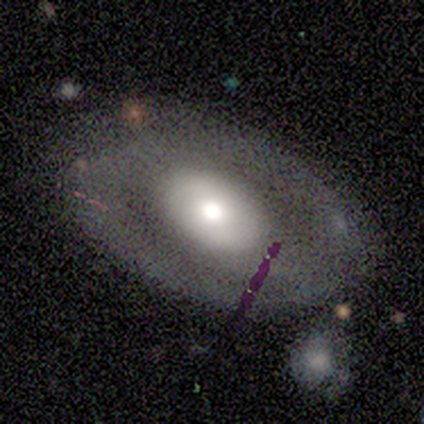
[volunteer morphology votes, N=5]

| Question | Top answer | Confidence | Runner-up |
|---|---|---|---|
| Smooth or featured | featured or disk | 80% | smooth (20%) |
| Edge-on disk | no | 100% | — |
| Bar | no | 75% | weak (25%) |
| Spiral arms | no | 75% | yes (25%) |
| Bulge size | small | 50% | large (25%) |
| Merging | none | 80% | major disturbance (20%) |